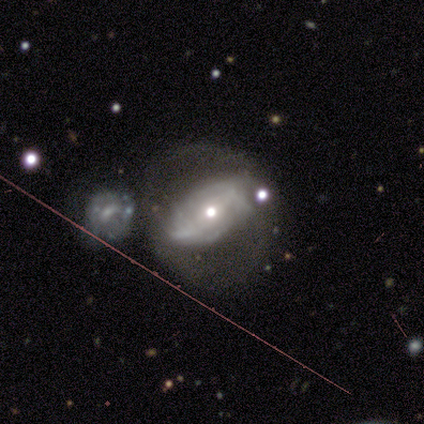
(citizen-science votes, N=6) Smooth or featured? 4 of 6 (67%) said featured or disk. Edge-on disk? 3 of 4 (75%) said no. Bar? 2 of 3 (67%) said no. Spiral arms? 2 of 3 (67%) said yes. Spiral winding? 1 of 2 (50%, tied with loose) said medium. Spiral arm count? 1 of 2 (50%, tied with can't tell) said 2. Bulge size? 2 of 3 (67%) said moderate. Merging? 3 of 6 (50%) said none.